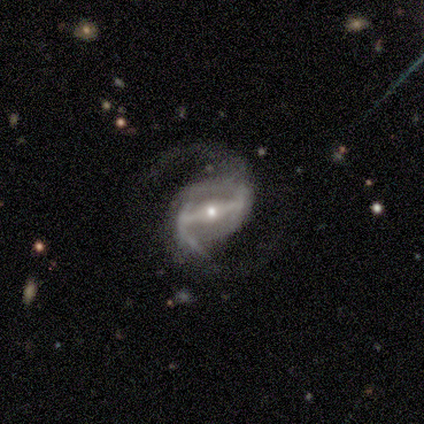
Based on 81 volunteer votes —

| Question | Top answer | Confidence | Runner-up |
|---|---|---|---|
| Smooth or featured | featured or disk | 96% | smooth (2%) |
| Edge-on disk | no | 99% | yes (1%) |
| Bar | strong | 81% | weak (19%) |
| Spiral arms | yes | 97% | no (3%) |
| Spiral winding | medium | 49% | loose (47%) |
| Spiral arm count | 2 | 99% | can't tell (1%) |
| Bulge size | small | 61% | moderate (35%) |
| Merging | none | 60% | minor disturbance (25%) |